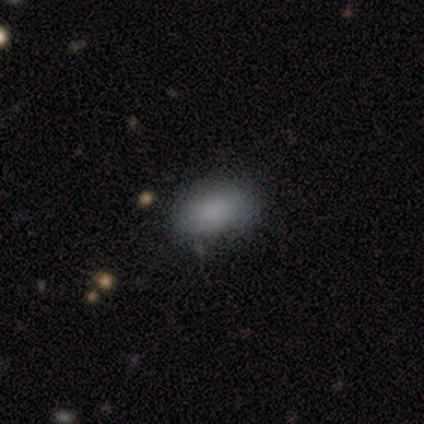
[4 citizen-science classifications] smooth-or-featured: smooth: 75% | star or artifact: 25% | featured or disk: 0%
  how-rounded: in between: 100% | round: 0% | cigar-shaped: 0%
  merging: none: 67% | minor disturbance: 33% | major disturbance: 0% | merger: 0%